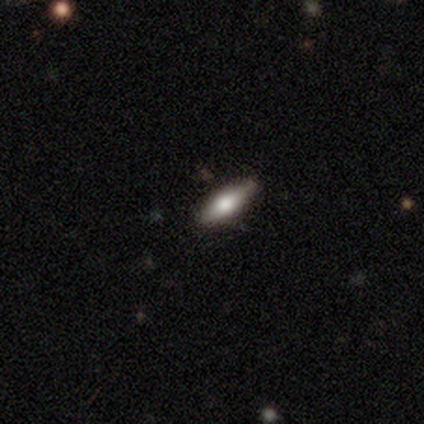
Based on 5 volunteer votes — smooth-or-featured: smooth: 60% | featured or disk: 40% | star or artifact: 0%
  how-rounded: in between: 67% | cigar-shaped: 33% | round: 0%
  merging: none: 100% | minor disturbance: 0% | major disturbance: 0% | merger: 0%